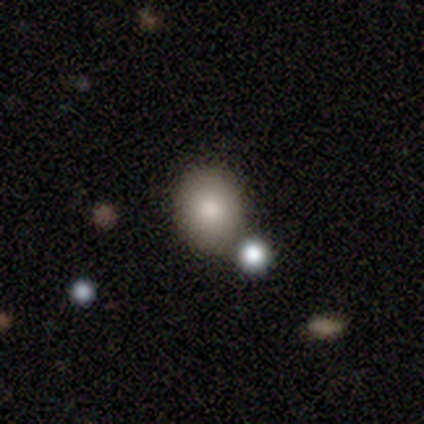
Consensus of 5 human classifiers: This is clearly a smooth galaxy (80%). How rounded: clearly round (100%). Merging: likely none (75%).